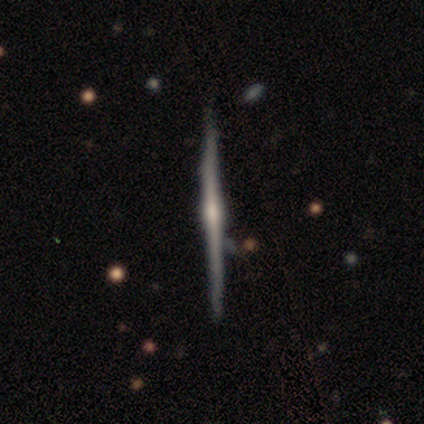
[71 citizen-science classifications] This appears to be a featured or disk galaxy (85%) viewed edge-on (100%) with a rounded central bulge (72%). Merging: none (73%).